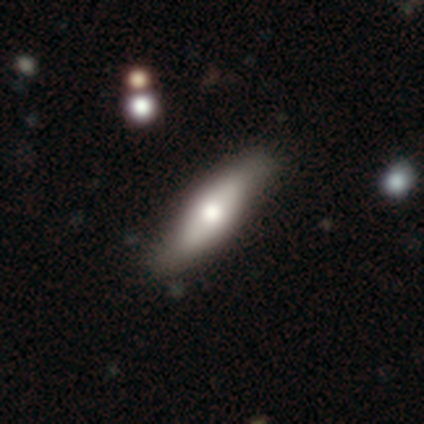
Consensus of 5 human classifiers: This appears to be a smooth galaxy with no disk features (60%) that is in between round and cigar-shaped (67%). Merging: none (80%).